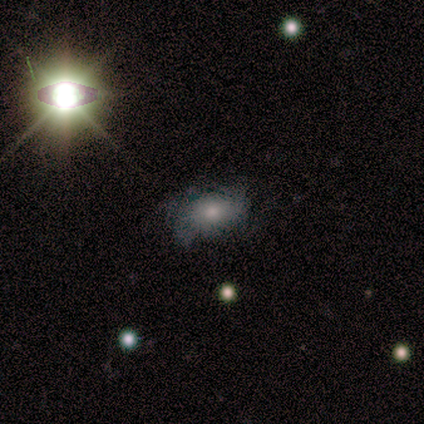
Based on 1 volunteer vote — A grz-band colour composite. It shows a smooth galaxy with no disk features (100%) that is in between round and cigar-shaped (100%). Merging: major disturbance (100%).